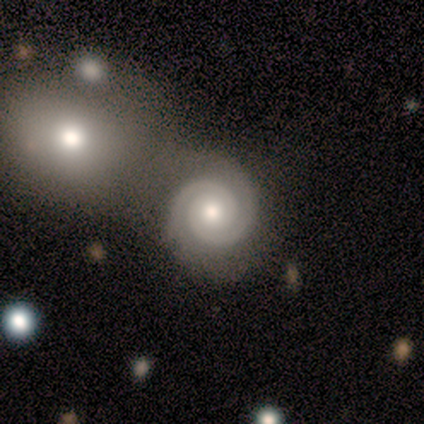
Q: Smooth or featured?
A: featured or disk (100%)
Q: Edge-on disk?
A: no (100%)
Q: Bar?
A: no (80%); runner-up: weak (20%)
Q: Spiral arms?
A: yes (100%)
Q: Spiral winding?
A: tight (60%); runner-up: medium (40%)
Q: Spiral arm count?
A: 2 (100%)
Q: Bulge size?
A: moderate (80%); runner-up: small (20%)
Q: Merging?
A: merger (60%); runner-up: none (20%)